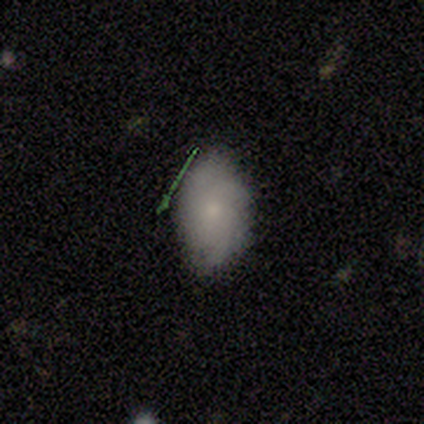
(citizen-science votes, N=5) This is clearly a smooth galaxy (100%). How rounded: clearly in between (100%). Merging: likely none (60%).